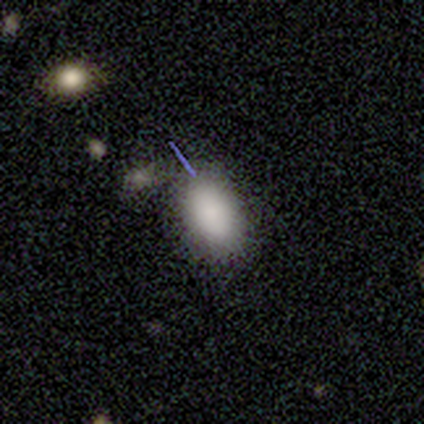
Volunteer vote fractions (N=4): A smooth galaxy with no disk features (75%) that is in between round and cigar-shaped (100%). Merging: none (50%).